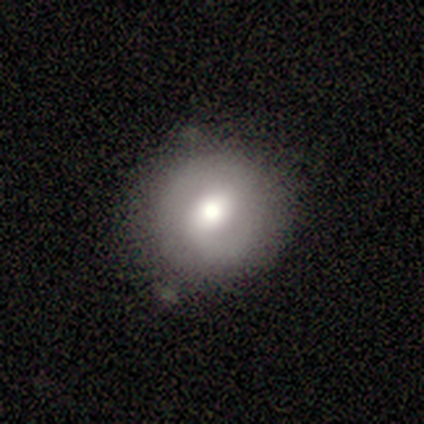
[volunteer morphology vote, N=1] A featured or disk galaxy (100%) with no bar (100%), 2 (100%) medium (100%) spiral arms (100%) and a large central bulge (100%). Merging: none (100%).